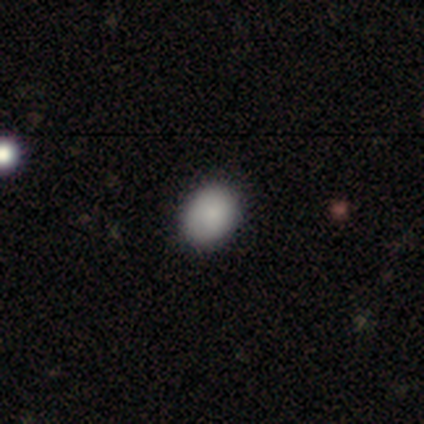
This is clearly a smooth galaxy (88%). How rounded: likely in between (60%). Merging: likely none (62%).